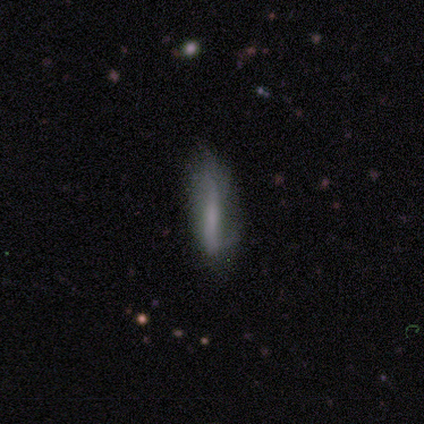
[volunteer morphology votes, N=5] This appears to be a featured or disk galaxy (60%) with a strong bar (50%, tied with no), tight (100%) spiral arms (50%, tied with no) and a large central bulge (50%, tied with moderate). Merging: none (50%, tied with minor disturbance).